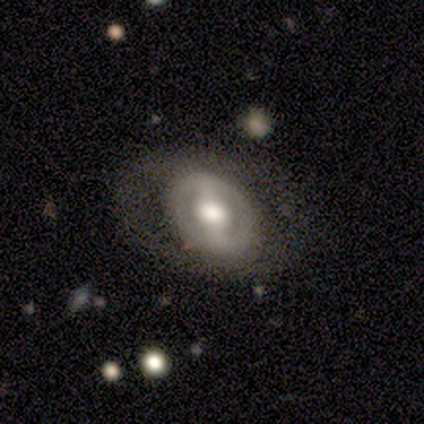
Smooth or featured?
  - featured or disk: 79% *
  - smooth: 18%
  - star or artifact: 3%
Edge-on disk?
  - no: 90% *
  - yes: 10%
Bar?
  - strong: 61% *
  - no: 21%
  - weak: 18%
Spiral arms?
  - no: 61% *
  - yes: 39%
Bulge size?
  - large: 46% *
  - moderate: 43%
  - dominant: 7%
  - small: 4%
  - none: 0%
Merging?
  - none: 68% *
  - minor disturbance: 16%
  - major disturbance: 16%
  - merger: 0%